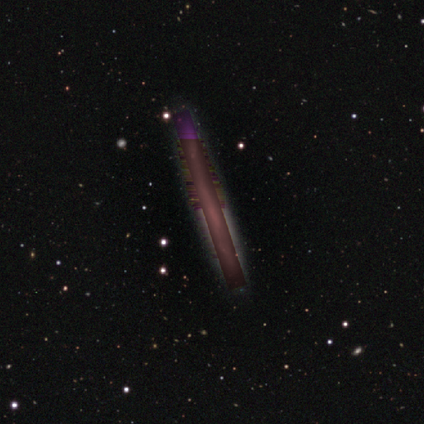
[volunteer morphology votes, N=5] Smooth or featured: star or artifact — 100%